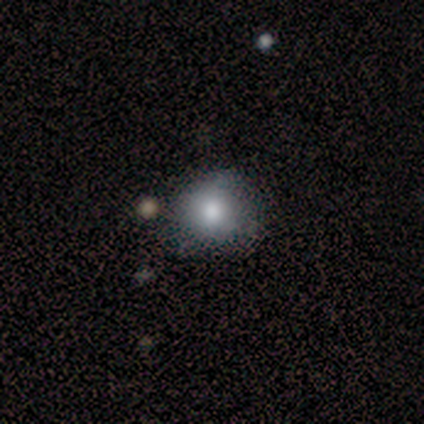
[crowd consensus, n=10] Volunteers were most divided on "merging": none: 89%, minor disturbance: 11%, major disturbance: 0%, merger: 0%. More confident: how rounded — round (100%); smooth or featured — smooth (90%).